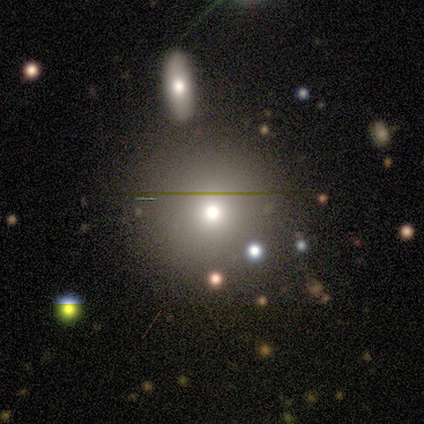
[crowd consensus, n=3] A smooth galaxy with no disk features (67%) that is round (50%, tied with in between).

Vote fractions:
- Smooth or featured? smooth: 67% / star or artifact: 33% / featured or disk: 0%
- How rounded? round: 50% (tied) / in between: 50% (tied) / cigar-shaped: 0%
- Merging? none: 100% / minor disturbance: 0% / major disturbance: 0% / merger: 0%